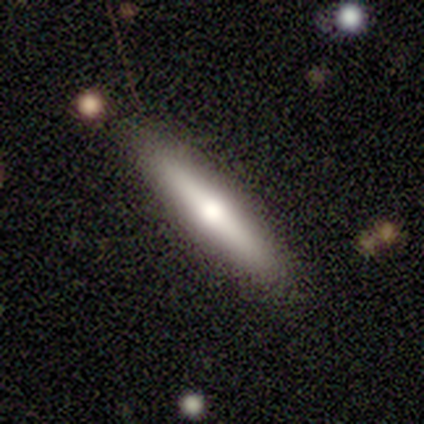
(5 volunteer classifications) Smooth or featured?
  - smooth: 60% *
  - featured or disk: 20%
  - star or artifact: 20%
How rounded?
  - cigar-shaped: 100% *
  - round: 0%
  - in between: 0%
Merging?
  - none: 75% *
  - minor disturbance: 25%
  - major disturbance: 0%
  - merger: 0%